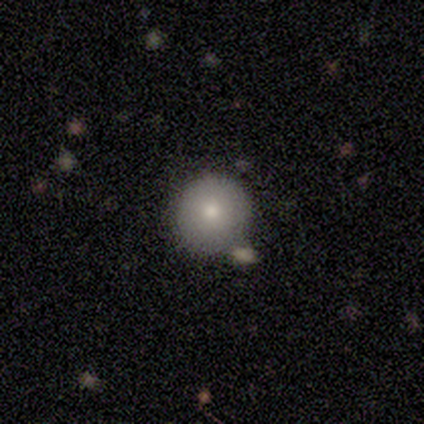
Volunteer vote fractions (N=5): Q: Smooth or featured?
A: smooth (60%); runner-up: featured or disk (40%)
Q: How rounded?
A: round (100%)
Q: Merging?
A: none (100%)